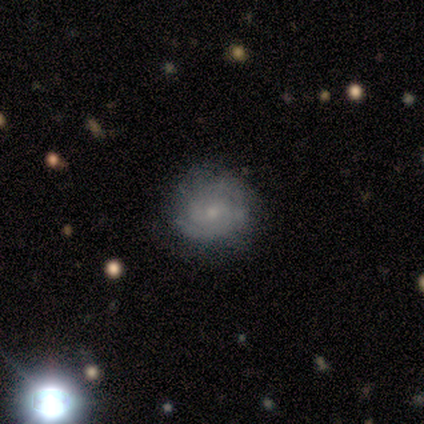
Smooth or featured? 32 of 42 (76%) said featured or disk. Edge-on disk? 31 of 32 (97%) said no. Bar? 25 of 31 (81%) said no. Spiral arms? 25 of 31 (81%) said yes. Spiral winding? 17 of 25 (68%) said tight. Spiral arm count? 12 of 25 (48%) said 2. Bulge size? 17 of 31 (55%) said small. Merging? 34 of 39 (87%) said none.